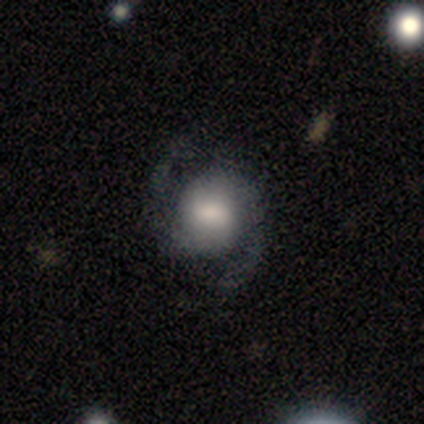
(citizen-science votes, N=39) Volunteers were most divided on "bar": weak: 44%, no: 38%, strong: 18%. Remaining: edge-on disk — no (100%); spiral arms — yes (94%); spiral arm count — 2 (94%); smooth or featured — featured or disk (87%); merging — none (74%); spiral winding — medium (50%); bulge size — large (44%).